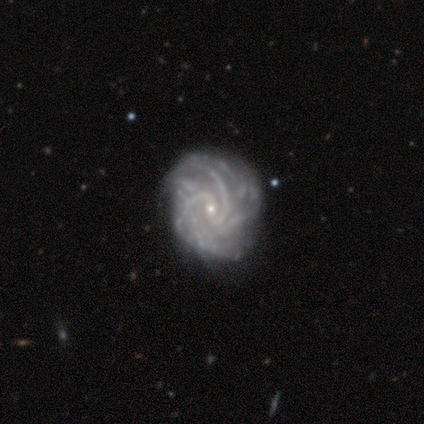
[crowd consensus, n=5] This is clearly a featured or disk galaxy (80%). It is clearly not viewed edge-on (100%). Bar: likely weak (75%). Spiral arm pattern: clearly yes (100%). Spiral arm count: possibly 2 (50%). Spiral winding: likely medium (75%). Central bulge: clearly small (100%). Merging: marginally none (40%, tied with minor disturbance).